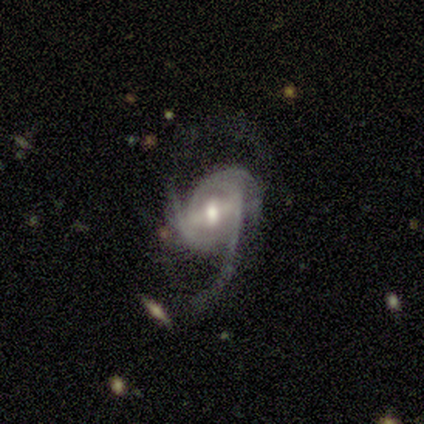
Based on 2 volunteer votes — A featured or disk galaxy (100%) with a strong bar (50%, tied with no), 2 (100%) medium (50%, tied with loose) spiral arms (100%) and a large central bulge (50%, tied with small). Merging: none (50%, tied with major disturbance).